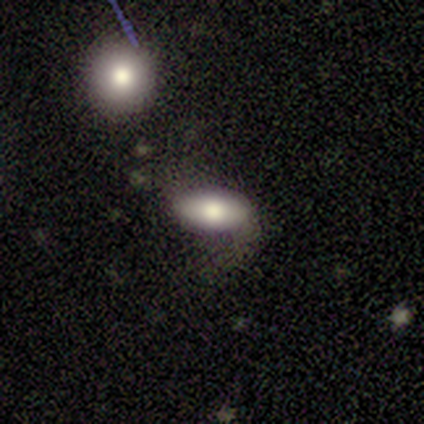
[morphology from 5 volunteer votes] Overall: smooth (60%; featured or disk 40%). How rounded: in between (100%). Merging: minor disturbance (60%; none 40%).